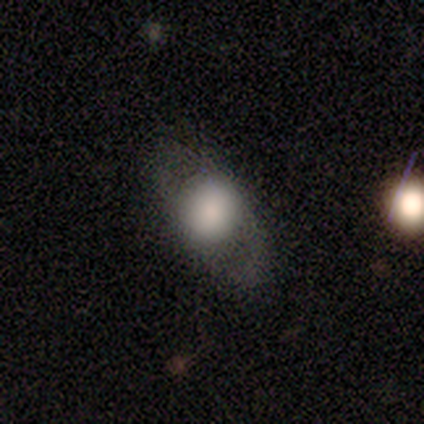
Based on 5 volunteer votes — A smooth galaxy with no disk features (100%) that is round (60%). Merging: major disturbance (60%).